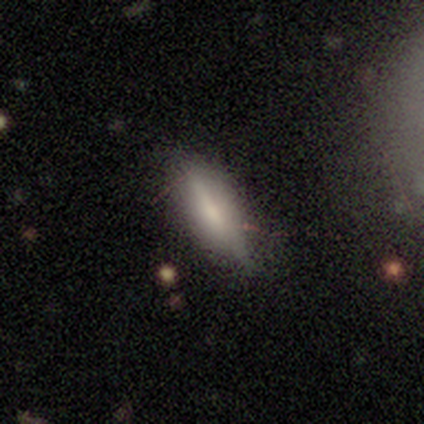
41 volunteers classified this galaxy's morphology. Smooth or featured?
  - smooth: 59% *
  - featured or disk: 37%
  - star or artifact: 5%
How rounded?
  - cigar-shaped: 67% *
  - in between: 33%
  - round: 0%
Merging?
  - none: 82% *
  - minor disturbance: 15%
  - major disturbance: 3%
  - merger: 0%